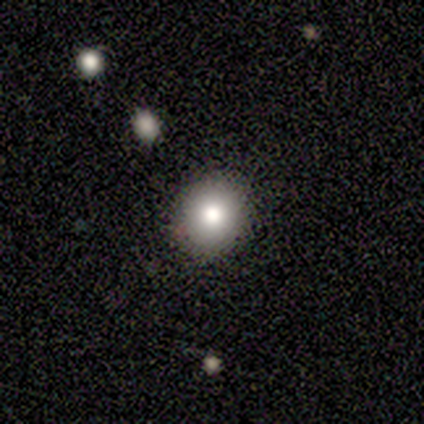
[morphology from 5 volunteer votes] Q: Smooth or featured?
A: smooth (80%); runner-up: star or artifact (20%)
Q: How rounded?
A: round (75%); runner-up: in between (25%)
Q: Merging?
A: none (75%); runner-up: minor disturbance (25%)